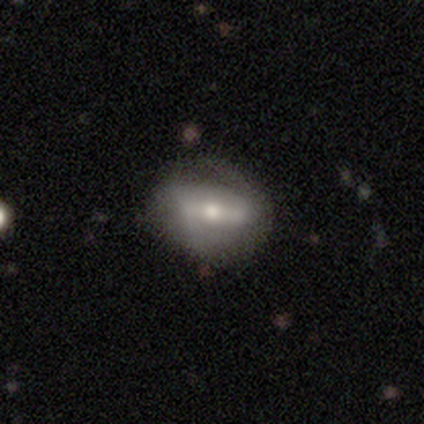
Smooth or featured? 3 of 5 (60%) said featured or disk. Edge-on disk? 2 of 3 (67%) said no. Bar? 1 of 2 (50%, tied with weak) said strong. Spiral arms? 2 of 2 (100%) said yes. Spiral winding? 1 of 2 (50%, tied with loose) said medium. Spiral arm count? 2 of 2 (100%) said 2. Bulge size? 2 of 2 (100%) said moderate. Merging? 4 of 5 (80%) said none.